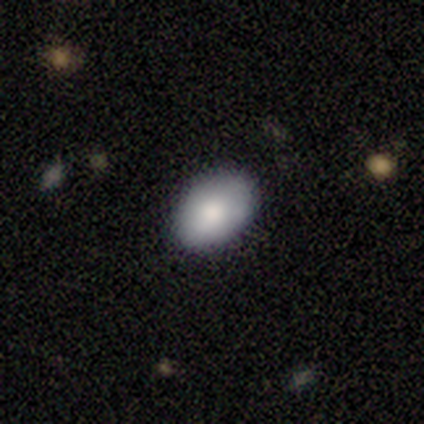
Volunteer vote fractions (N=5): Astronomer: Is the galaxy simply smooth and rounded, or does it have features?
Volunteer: smooth — 100%.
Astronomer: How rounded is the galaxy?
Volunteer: in between — 100%.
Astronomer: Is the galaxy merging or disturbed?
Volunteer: none — 100%.